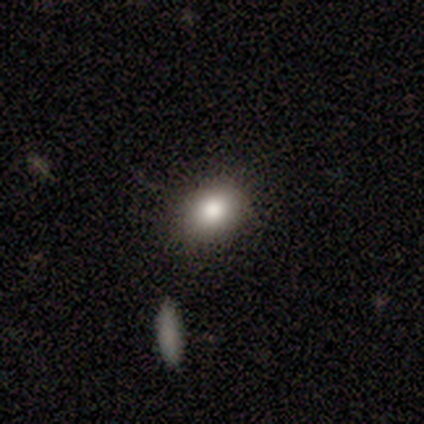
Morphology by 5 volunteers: Smooth or featured? smooth (100%)
How rounded? round (60%)
Merging? none (80%)